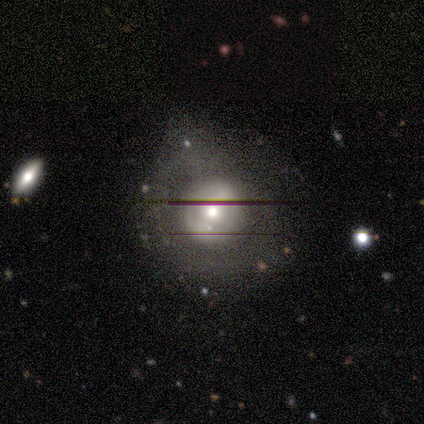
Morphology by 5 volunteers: Smooth or featured? featured or disk (60%)
Edge-on disk? no (100%)
Bar? no (100%)
Spiral arms? no (100%)
Bulge size? small (67%)
Merging? none (80%)